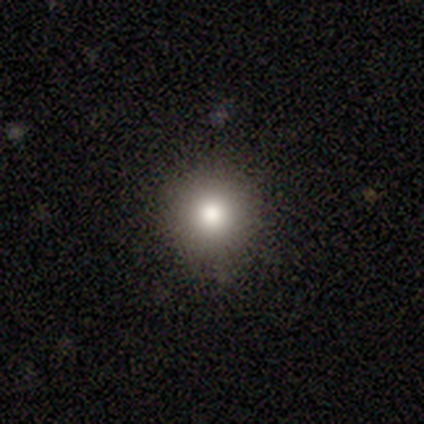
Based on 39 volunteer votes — This is clearly a smooth galaxy (82%). How rounded: clearly round (94%). Merging: clearly none (85%).